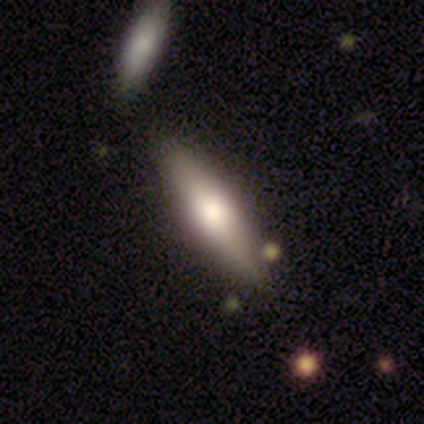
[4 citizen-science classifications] This appears to be a featured or disk galaxy (75%) viewed edge-on (100%) with a rounded central bulge (100%). Merging: none (75%).